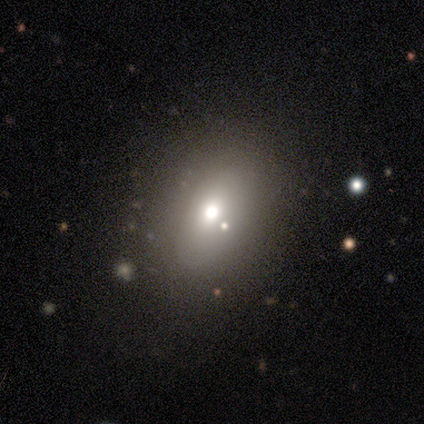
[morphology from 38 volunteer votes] A smooth galaxy with no disk features (58%) that is in between round and cigar-shaped (55%). Merging: none (75%).